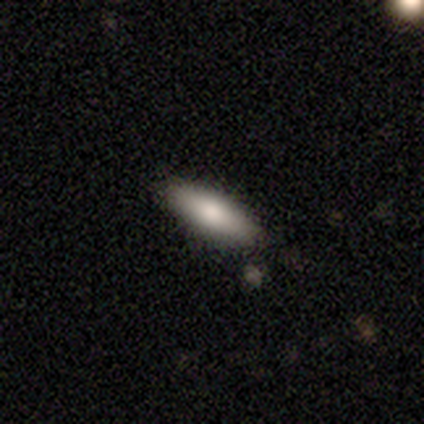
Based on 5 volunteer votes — Volunteers were most divided on "smooth or featured" (2-way tie): smooth: 40%, featured or disk: 40%, star or artifact: 20%; "how rounded" (2-way tie): in between: 50%, cigar-shaped: 50%, round: 0%. More confident: merging — none (75%).